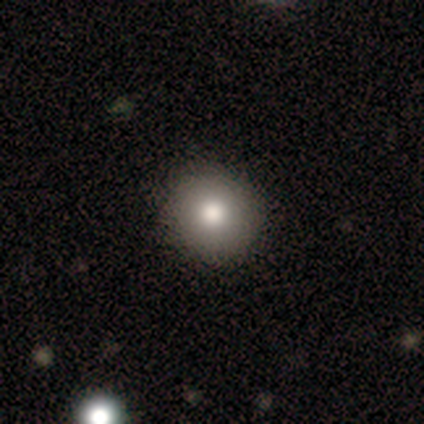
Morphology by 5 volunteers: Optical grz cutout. It shows a smooth galaxy with no disk features (100%) that is round (80%). Merging: none (100%).